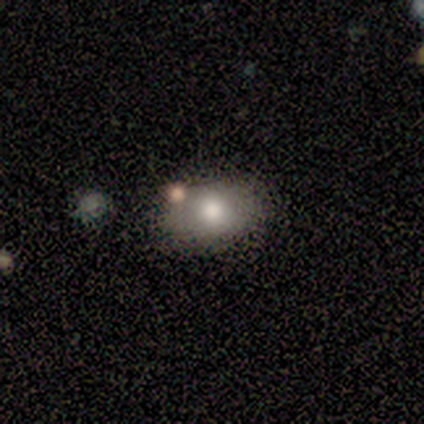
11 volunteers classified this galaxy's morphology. A smooth galaxy with no disk features (91%) that is in between round and cigar-shaped (70%). Merging: none (55%).